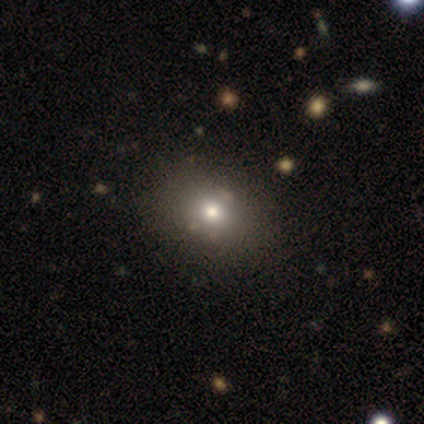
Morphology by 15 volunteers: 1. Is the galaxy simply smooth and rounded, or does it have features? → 73% smooth, 20% star or artifact, 7% featured or disk.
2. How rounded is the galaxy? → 64% in between, 36% round, 0% cigar-shaped.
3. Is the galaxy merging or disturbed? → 83% none, 8% minor disturbance, 8% major disturbance, 0% merger.